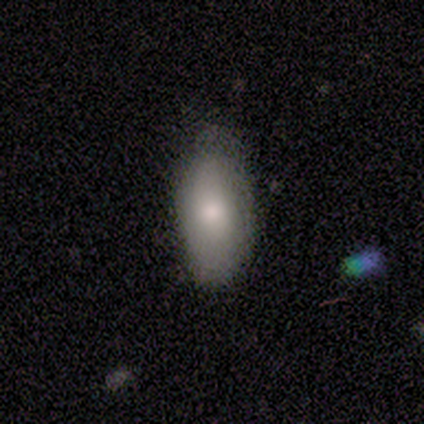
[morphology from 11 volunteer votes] A smooth galaxy with no disk features (82%) that is in between round and cigar-shaped (78%).

Vote fractions:
- Smooth or featured? smooth: 82% / featured or disk: 18% / star or artifact: 0%
- How rounded? in between: 78% / cigar-shaped: 22% / round: 0%
- Merging? none: 73% / minor disturbance: 27% / major disturbance: 0% / merger: 0%